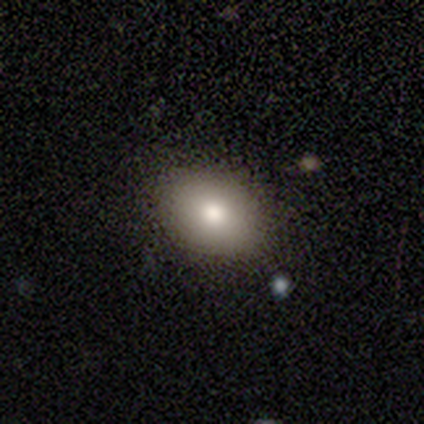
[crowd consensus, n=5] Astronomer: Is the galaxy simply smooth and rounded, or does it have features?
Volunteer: smooth — 60% (runner-up: star or artifact, 40%).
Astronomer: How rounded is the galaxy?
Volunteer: round — 67%.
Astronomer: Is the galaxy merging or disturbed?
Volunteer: none — 67%.